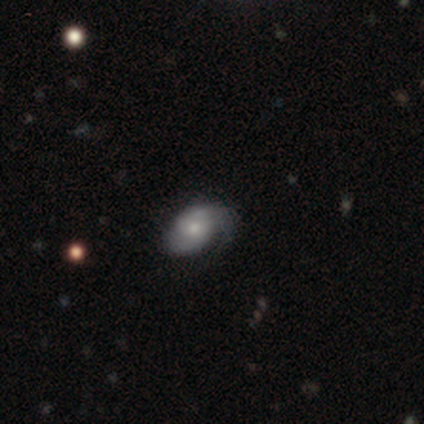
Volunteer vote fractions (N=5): A featured or disk galaxy (60%) with no bar (67%), 2 (67%) tight (67%) spiral arms (100%) and a small central bulge (67%). Merging: minor disturbance (60%).